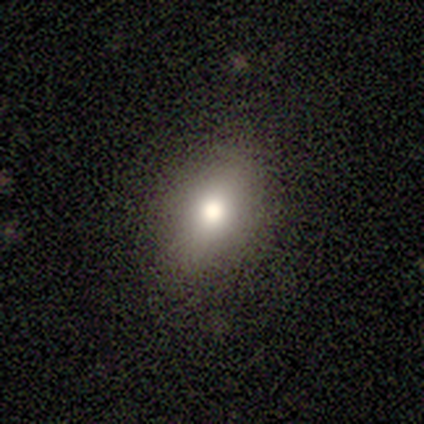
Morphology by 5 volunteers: smooth_or_featured: smooth (p=0.80) [alt: featured or disk p=0.20]
how_rounded: in between (p=1.00)
merging: none (p=1.00)